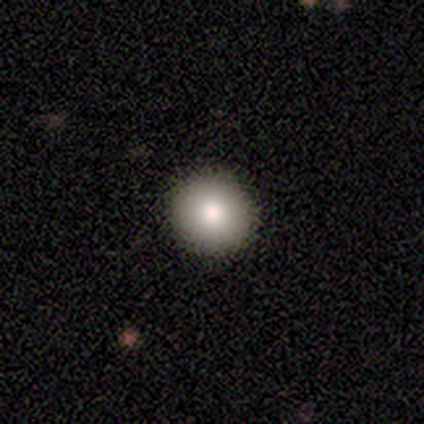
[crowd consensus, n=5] A smooth galaxy with no disk features (100%) that is round (100%).

Vote fractions:
- Smooth or featured? smooth: 100% / featured or disk: 0% / star or artifact: 0%
- How rounded? round: 100% / in between: 0% / cigar-shaped: 0%
- Merging? none: 100% / minor disturbance: 0% / major disturbance: 0% / merger: 0%